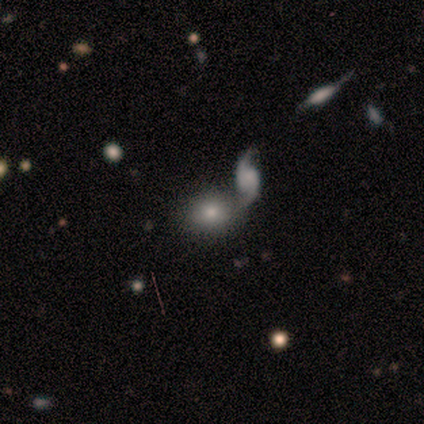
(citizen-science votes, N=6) A smooth galaxy with no disk features (83%) that is in between round and cigar-shaped (60%). Merging: none (50%).